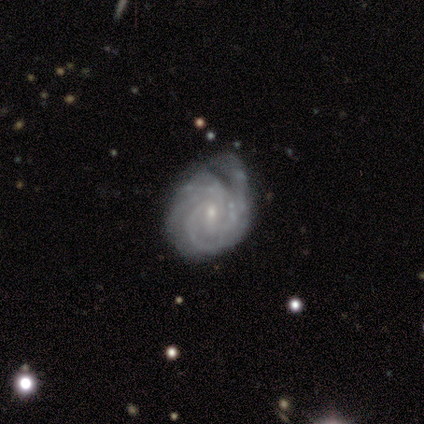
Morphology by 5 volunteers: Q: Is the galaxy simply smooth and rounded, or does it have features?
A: featured or disk — 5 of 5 (100%).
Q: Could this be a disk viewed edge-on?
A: no — 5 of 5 (100%).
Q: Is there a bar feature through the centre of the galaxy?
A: weak — 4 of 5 (80%).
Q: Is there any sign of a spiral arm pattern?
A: yes — 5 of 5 (100%).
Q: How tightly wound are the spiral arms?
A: tight — 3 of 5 (60%).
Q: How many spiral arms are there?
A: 2 — 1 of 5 (20%, tied with 3, 4, more than 4 and can't tell).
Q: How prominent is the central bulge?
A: small — 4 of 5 (80%).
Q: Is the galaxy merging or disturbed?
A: none — 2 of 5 (40%, tied with major disturbance).